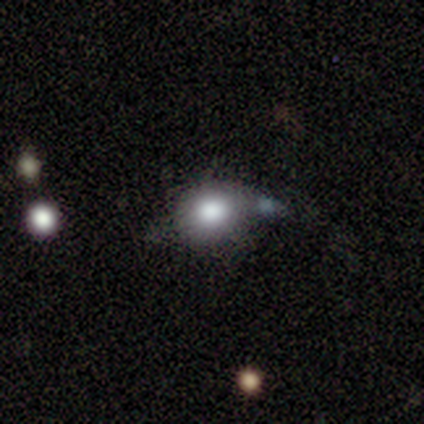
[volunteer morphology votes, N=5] smooth_or_featured: smooth (p=0.60) [alt: featured or disk p=0.40]
how_rounded: round (p=1.00)
merging: none (p=0.60) [alt: major disturbance p=0.20]